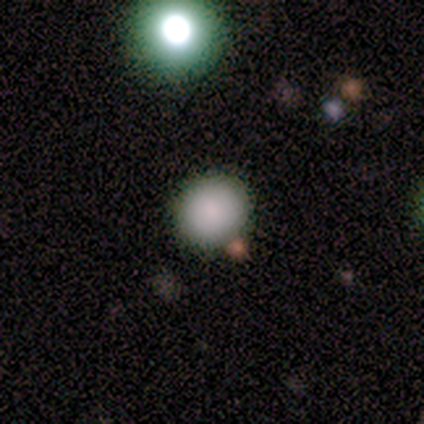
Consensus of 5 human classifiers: Smooth or featured? 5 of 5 (100%) said smooth. How rounded? 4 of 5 (80%) said round. Merging? 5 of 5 (100%) said none.